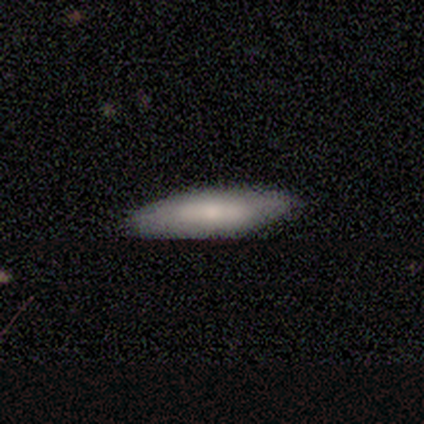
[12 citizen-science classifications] A smooth galaxy with no disk features (58%) that is cigar-shaped (71%).

Vote fractions:
- Smooth or featured? smooth: 58% / featured or disk: 42% / star or artifact: 0%
- How rounded? cigar-shaped: 71% / in between: 29% / round: 0%
- Merging? none: 92% / minor disturbance: 8% / major disturbance: 0% / merger: 0%